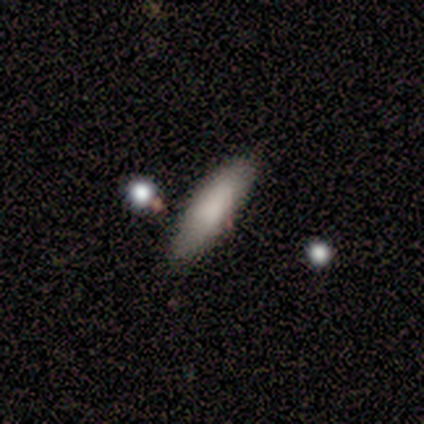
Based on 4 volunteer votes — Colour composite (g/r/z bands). It shows a smooth galaxy with no disk features (100%) that is cigar-shaped (75%). Merging: none (75%).